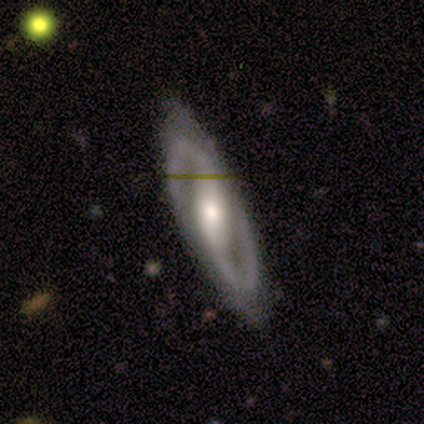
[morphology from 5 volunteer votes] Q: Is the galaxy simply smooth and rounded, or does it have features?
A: featured or disk — 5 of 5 (100%).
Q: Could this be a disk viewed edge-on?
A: no — 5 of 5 (100%).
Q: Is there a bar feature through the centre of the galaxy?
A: weak — 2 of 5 (40%, tied with no).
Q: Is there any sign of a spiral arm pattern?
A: yes — 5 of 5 (100%).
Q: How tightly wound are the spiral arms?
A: loose — 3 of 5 (60%).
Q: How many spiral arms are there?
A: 2 — 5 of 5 (100%).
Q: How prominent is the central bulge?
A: moderate — 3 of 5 (60%).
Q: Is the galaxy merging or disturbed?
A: none — 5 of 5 (100%).